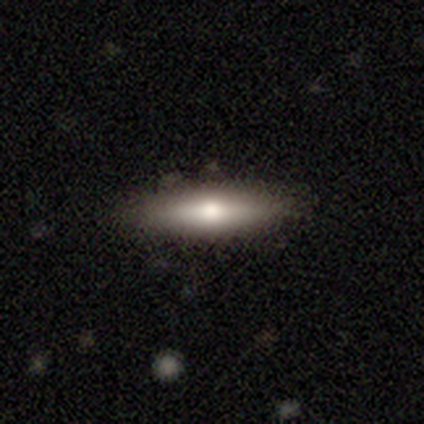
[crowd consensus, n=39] A smooth galaxy with no disk features (67%) that is cigar-shaped (65%). Merging: none (79%).